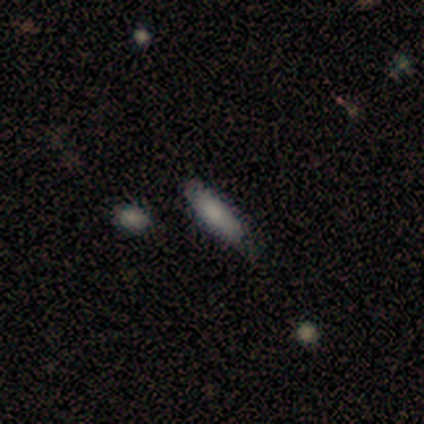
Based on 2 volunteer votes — smooth_or_featured: smooth (p=0.50) [tied with: star or artifact p=0.50]
how_rounded: cigar-shaped (p=1.00)
merging: none (p=1.00)